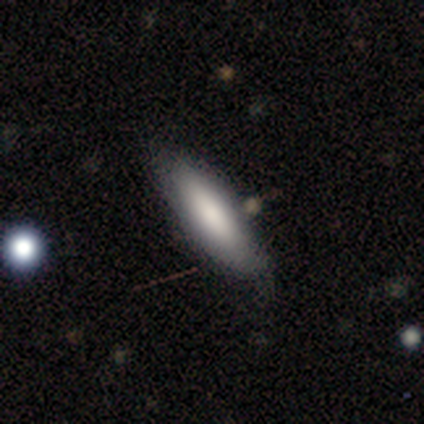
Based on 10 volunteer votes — This is clearly a smooth galaxy (100%). How rounded: likely in between (70%). Merging: clearly none (90%).